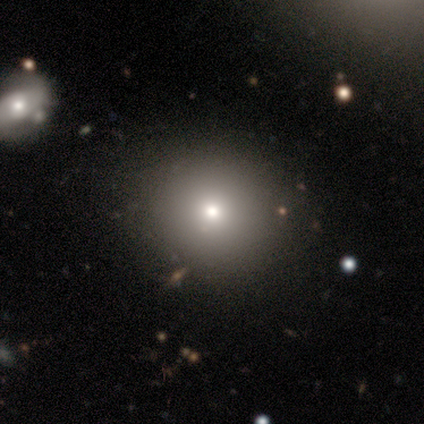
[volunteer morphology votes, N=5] Smooth or featured? 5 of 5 (100%) said smooth. How rounded? 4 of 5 (80%) said round. Merging? 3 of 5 (60%) said none.